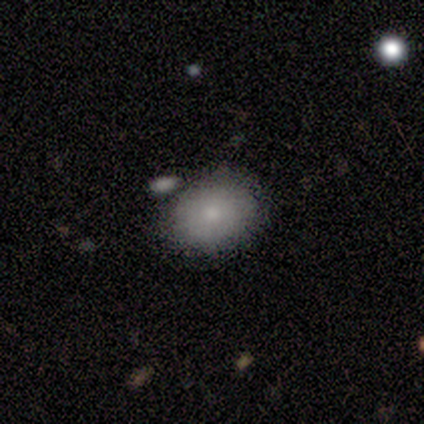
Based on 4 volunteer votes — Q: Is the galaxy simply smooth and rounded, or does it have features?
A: featured or disk — 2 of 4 (50%).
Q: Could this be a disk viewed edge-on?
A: no — 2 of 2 (100%).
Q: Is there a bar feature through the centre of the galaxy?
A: weak — 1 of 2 (50%, tied with no).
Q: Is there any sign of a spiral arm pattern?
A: yes — 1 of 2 (50%, tied with no).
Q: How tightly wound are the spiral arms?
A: tight — 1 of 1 (100%).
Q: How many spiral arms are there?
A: can't tell — 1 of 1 (100%).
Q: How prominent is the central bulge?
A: moderate — 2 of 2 (100%).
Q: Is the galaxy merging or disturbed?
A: none — 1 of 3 (33%, tied with minor disturbance and merger).